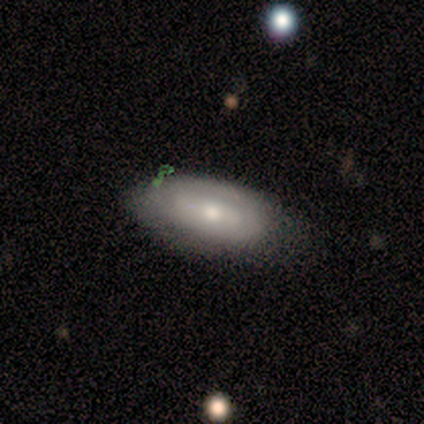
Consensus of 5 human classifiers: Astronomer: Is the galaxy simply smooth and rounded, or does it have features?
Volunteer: featured or disk — 60%.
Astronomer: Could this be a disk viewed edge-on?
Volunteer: no — 100%.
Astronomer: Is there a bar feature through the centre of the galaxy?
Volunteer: weak — 67%.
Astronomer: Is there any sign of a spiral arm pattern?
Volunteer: no — 100%.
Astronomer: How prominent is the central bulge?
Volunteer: large — 33%, tied with moderate and small at 33%.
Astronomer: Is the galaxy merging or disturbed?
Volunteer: none — 50%, tied with minor disturbance at 50%.